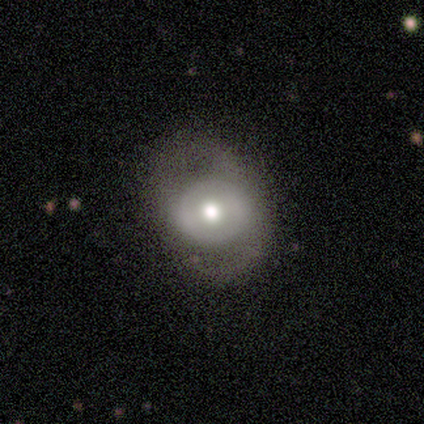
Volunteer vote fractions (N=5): smooth_or_featured: smooth (p=0.60) [alt: featured or disk p=0.40]
how_rounded: round (p=0.67) [alt: in between p=0.33]
merging: none (p=0.60) [alt: major disturbance p=0.40]